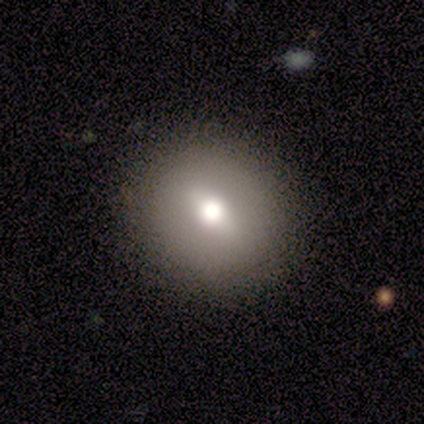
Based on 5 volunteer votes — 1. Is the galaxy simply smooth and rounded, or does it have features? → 60% featured or disk, 40% smooth, 0% star or artifact.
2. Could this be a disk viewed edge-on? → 100% no, 0% yes.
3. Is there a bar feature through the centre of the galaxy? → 67% no, 33% weak, 0% strong.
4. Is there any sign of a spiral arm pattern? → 100% no, 0% yes.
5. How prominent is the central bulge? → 100% moderate, 0% dominant, 0% large, 0% small, 0% none.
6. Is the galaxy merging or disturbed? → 100% none, 0% minor disturbance, 0% major disturbance, 0% merger.